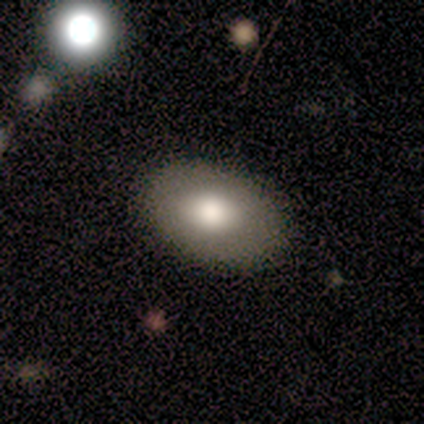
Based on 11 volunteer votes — Smooth or featured: smooth — 73% (star or artifact — 18%)
How rounded: in between — 100%
Merging: none — 100%